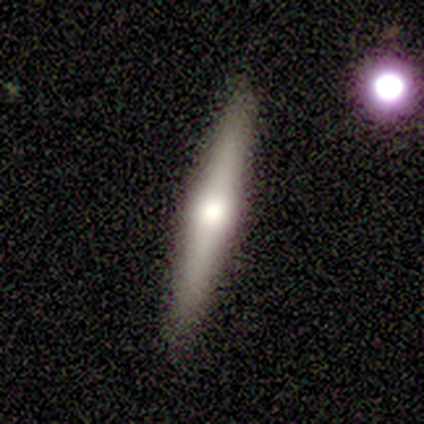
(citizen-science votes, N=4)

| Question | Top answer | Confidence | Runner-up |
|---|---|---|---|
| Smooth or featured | smooth | 50% | tied: featured or disk (50%) |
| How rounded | in between | 50% | tied: cigar-shaped (50%) |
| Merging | none | 100% | — |